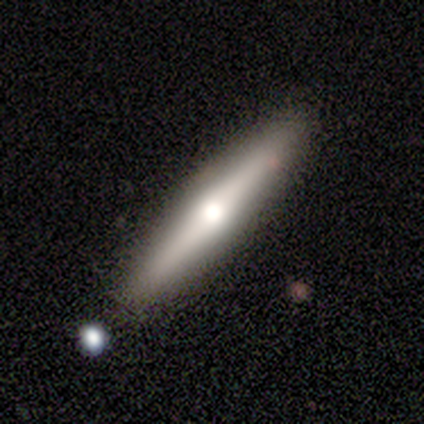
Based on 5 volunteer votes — Smooth or featured: featured or disk — 80% (smooth — 20%)
Edge-on disk: yes — 100%
Edge-on bulge: rounded — 100%
Merging: none — 80% (minor disturbance — 20%)